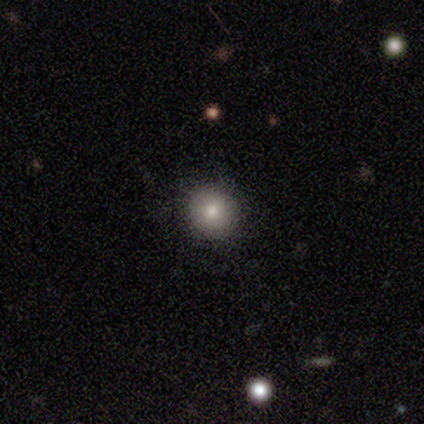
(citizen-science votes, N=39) smooth_or_featured: smooth (p=0.77) [alt: star or artifact p=0.15]
how_rounded: round (p=0.97) [alt: in between p=0.03]
merging: none (p=0.94) [alt: minor disturbance p=0.03]